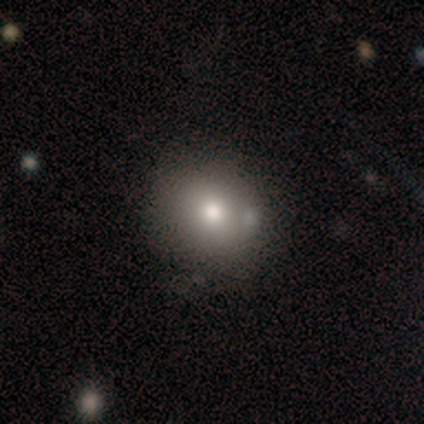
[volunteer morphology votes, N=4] Q: Smooth or featured?
A: featured or disk (75%); runner-up: smooth (25%)
Q: Edge-on disk?
A: no (100%)
Q: Bar?
A: no (67%); runner-up: weak (33%)
Q: Spiral arms?
A: no (67%); runner-up: yes (33%)
Q: Bulge size?
A: moderate (67%); runner-up: small (33%)
Q: Merging?
A: none (50%); tied with: major disturbance (50%)